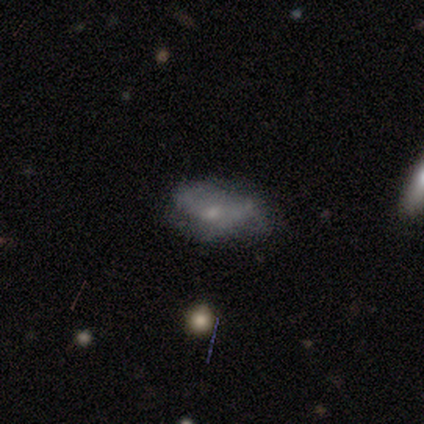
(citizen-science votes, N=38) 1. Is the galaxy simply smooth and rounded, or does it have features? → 61% featured or disk, 39% smooth, 0% star or artifact.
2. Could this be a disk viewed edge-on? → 91% no, 9% yes.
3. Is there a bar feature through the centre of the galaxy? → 100% no, 0% strong, 0% weak.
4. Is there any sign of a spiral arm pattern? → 57% no, 43% yes.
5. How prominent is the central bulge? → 71% small, 14% moderate, 14% none, 0% dominant, 0% large.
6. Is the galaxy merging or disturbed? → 45% none, 29% minor disturbance, 21% major disturbance, 5% merger.